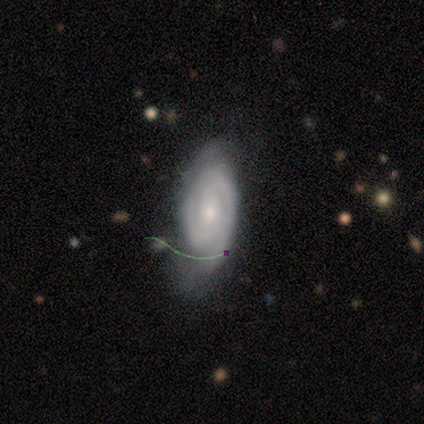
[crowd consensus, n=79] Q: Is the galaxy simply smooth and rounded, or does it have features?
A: featured or disk — 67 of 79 (85%).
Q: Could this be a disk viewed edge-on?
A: no — 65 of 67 (97%).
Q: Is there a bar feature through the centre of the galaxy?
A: no — 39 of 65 (60%).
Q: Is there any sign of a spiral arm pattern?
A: yes — 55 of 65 (85%).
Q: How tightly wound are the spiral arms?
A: tight — 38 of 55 (69%).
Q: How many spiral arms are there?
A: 2 — 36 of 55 (65%).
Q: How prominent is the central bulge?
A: small — 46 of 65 (71%).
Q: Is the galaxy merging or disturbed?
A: none — 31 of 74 (42%).